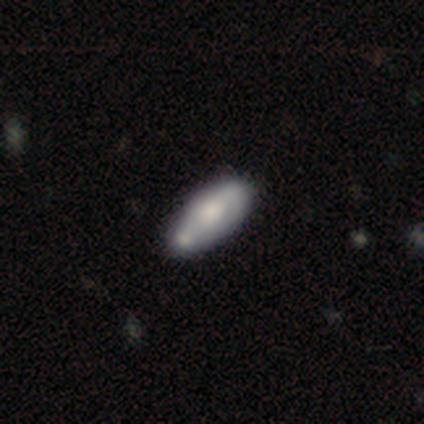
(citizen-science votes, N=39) This is likely a smooth galaxy (64%). How rounded: clearly in between (80%). Merging: marginally none (29%).